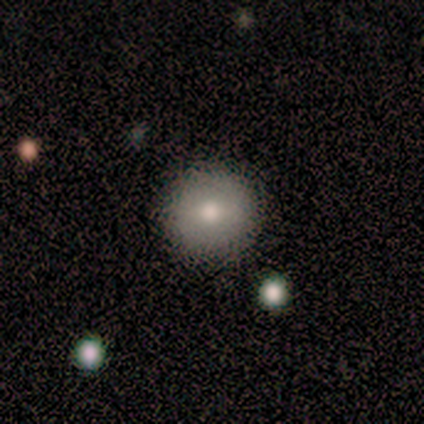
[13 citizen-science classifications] Volunteers were most divided on "smooth or featured": smooth: 69%, featured or disk: 31%, star or artifact: 0%. More confident: merging — none (92%); how rounded — round (89%).